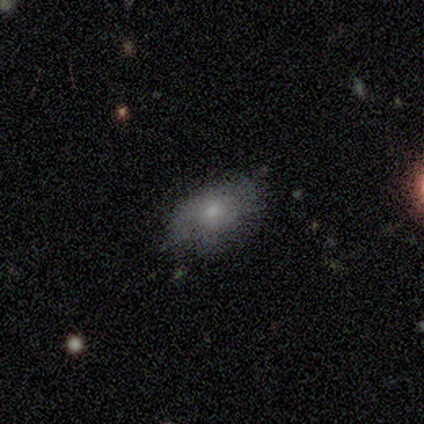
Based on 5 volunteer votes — Smooth or featured: featured or disk — 60% (smooth — 20%)
Edge-on disk: no — 100%
Bar: no — 100%
Spiral arms: no — 67% (yes — 33%)
Bulge size: small — 100%
Merging: none — 75% (minor disturbance — 25%)